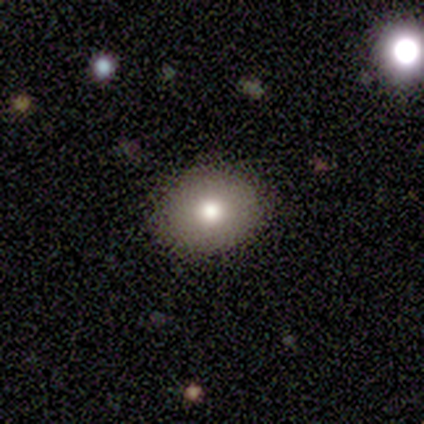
A smooth galaxy with no disk features (86%) that is round (83%).

Vote fractions:
- Smooth or featured? smooth: 86% / star or artifact: 14% / featured or disk: 0%
- How rounded? round: 83% / in between: 17% / cigar-shaped: 0%
- Merging? none: 100% / minor disturbance: 0% / major disturbance: 0% / merger: 0%